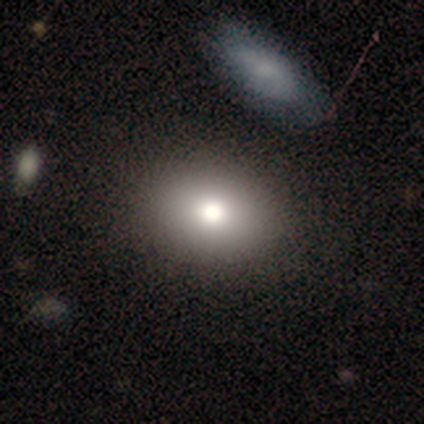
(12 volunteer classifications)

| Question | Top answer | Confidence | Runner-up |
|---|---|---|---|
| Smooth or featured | smooth | 75% | featured or disk (25%) |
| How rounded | in between | 56% | round (44%) |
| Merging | none | 92% | minor disturbance (8%) |